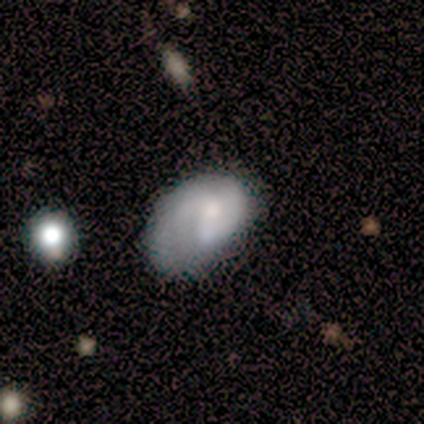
Q: Smooth or featured?
A: featured or disk (50%); runner-up: smooth (33%)
Q: Edge-on disk?
A: no (100%)
Q: Bar?
A: no (83%); runner-up: weak (17%)
Q: Spiral arms?
A: yes (67%); runner-up: no (33%)
Q: Spiral winding?
A: medium (50%); runner-up: tight (25%)
Q: Spiral arm count?
A: 2 (100%)
Q: Bulge size?
A: small (50%); runner-up: moderate (33%)
Q: Merging?
A: minor disturbance (40%); runner-up: none (20%)